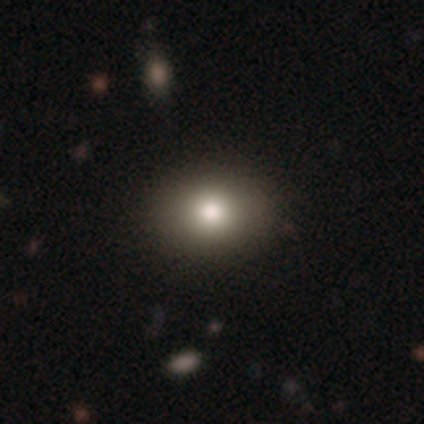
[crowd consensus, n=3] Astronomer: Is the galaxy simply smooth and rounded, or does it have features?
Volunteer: smooth — 100%.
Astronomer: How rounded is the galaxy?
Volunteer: in between — 67%.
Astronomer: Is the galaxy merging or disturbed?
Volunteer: none — 100%.